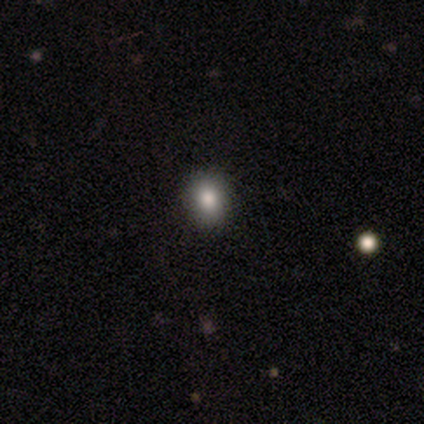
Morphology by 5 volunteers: Volunteers were most divided on "smooth or featured": smooth: 60%, star or artifact: 40%, featured or disk: 0%. More confident: merging — none (100%); how rounded — round (67%).